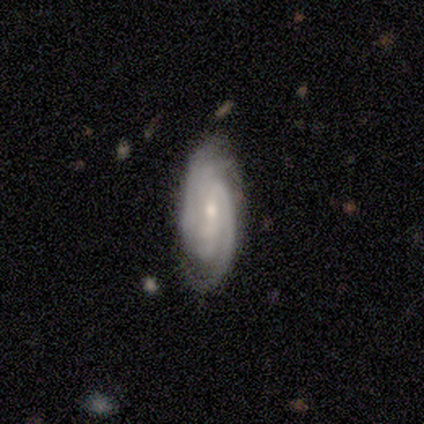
This is clearly a featured or disk galaxy (80%). It is clearly not viewed edge-on (100%). Bar: possibly strong (50%, tied with weak). Spiral arm pattern: clearly yes (100%). Spiral arm count: possibly 2 (50%). Spiral winding: likely tight (75%). Central bulge: likely small (75%). Merging: marginally none (40%, tied with minor disturbance).